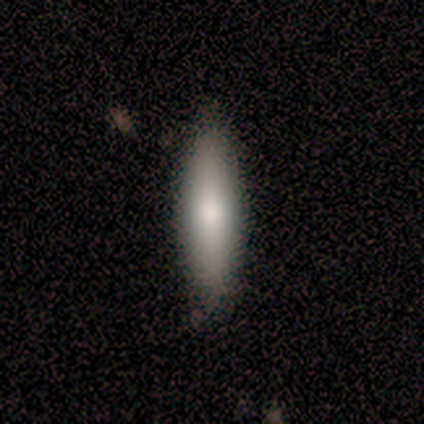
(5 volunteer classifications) Q: Smooth or featured?
A: smooth (80%); runner-up: featured or disk (20%)
Q: How rounded?
A: in between (50%); tied with: cigar-shaped (50%)
Q: Merging?
A: none (80%); runner-up: major disturbance (20%)